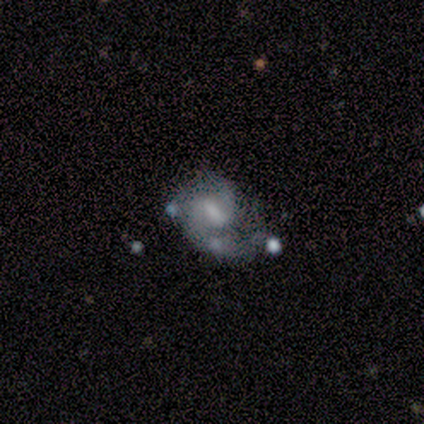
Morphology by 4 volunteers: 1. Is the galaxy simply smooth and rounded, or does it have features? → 75% featured or disk, 25% smooth, 0% star or artifact.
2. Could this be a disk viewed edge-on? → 100% no, 0% yes.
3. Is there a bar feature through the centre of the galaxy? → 67% weak, 33% strong, 0% no.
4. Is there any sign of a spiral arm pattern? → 100% yes, 0% no.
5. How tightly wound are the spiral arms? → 67% medium, 33% loose, 0% tight.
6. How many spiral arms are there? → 100% 2, 0% 1, 0% 3, 0% 4, 0% more than 4, 0% can't tell.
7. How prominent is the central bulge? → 33% moderate (tied), 33% small (tied), 33% none (tied), 0% dominant, 0% large.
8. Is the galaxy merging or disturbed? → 50% none, 25% major disturbance, 25% merger, 0% minor disturbance.